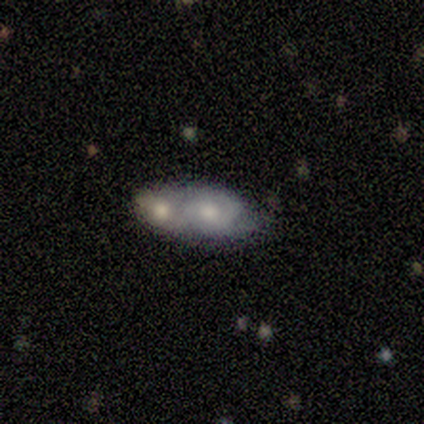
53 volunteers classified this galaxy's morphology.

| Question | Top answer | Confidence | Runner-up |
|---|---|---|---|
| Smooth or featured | smooth | 51% | featured or disk (47%) |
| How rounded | in between | 81% | round (11%) |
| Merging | merger | 65% | none (23%) |